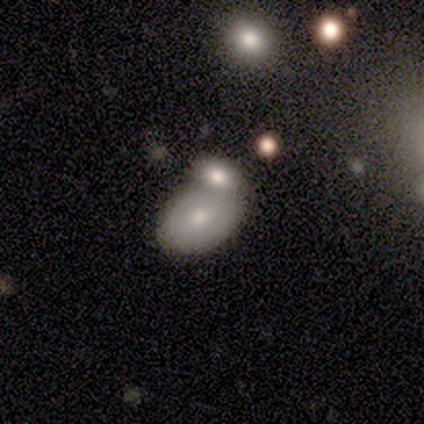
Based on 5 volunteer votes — Morphology: type=smooth (80%); roundness=in between (100%); merging=merger (80%).